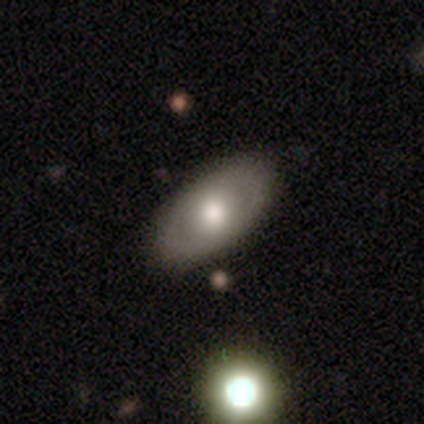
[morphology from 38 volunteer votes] Smooth or featured? 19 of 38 (50%, tied with featured or disk) said smooth. How rounded? 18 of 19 (95%) said in between. Merging? 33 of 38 (87%) said none.